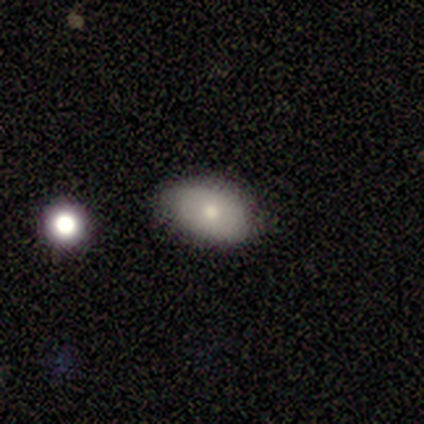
Morphology: type=smooth (80%); roundness=in between (100%); merging=none (100%).